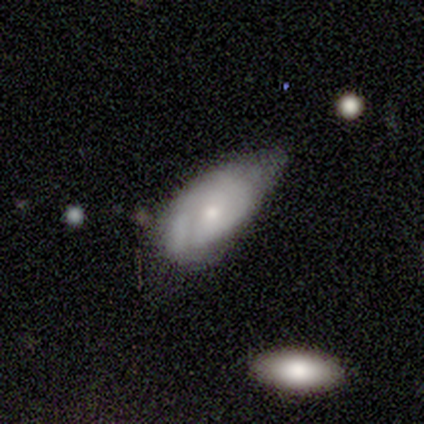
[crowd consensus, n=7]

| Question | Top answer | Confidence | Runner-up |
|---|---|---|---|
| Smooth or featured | smooth | 43% | tied: featured or disk (43%) |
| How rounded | in between | 67% | round (33%) |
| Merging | minor disturbance | 67% | none (17%) |